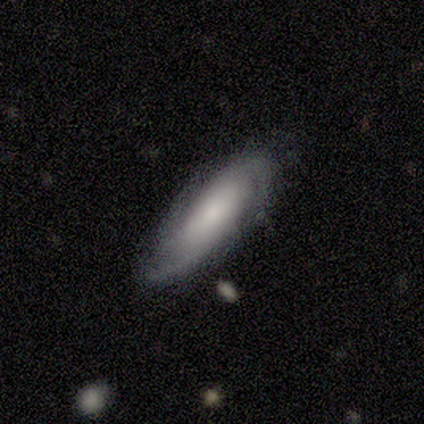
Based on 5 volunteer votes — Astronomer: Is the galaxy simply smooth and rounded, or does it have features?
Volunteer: smooth — 60% (runner-up: featured or disk, 40%).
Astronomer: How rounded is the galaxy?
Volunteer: in between — 100%.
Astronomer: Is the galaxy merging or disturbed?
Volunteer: none — 80%.